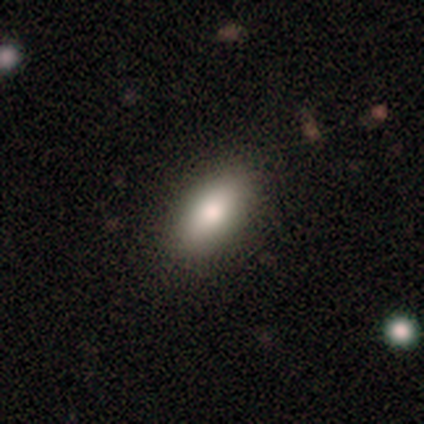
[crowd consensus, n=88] This is likely a smooth galaxy (76%). How rounded: clearly in between (90%). Merging: clearly none (84%).